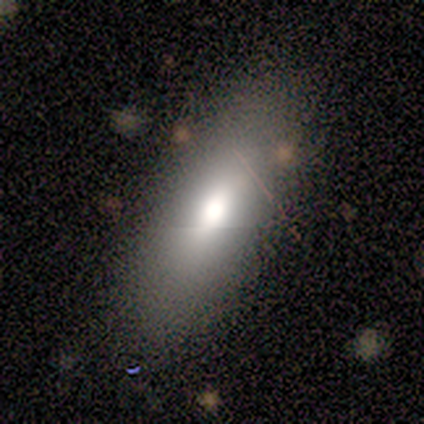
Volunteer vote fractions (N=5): Smooth or featured: smooth — 100%
How rounded: in between — 60% (cigar-shaped — 40%)
Merging: none — 80% (minor disturbance — 20%)